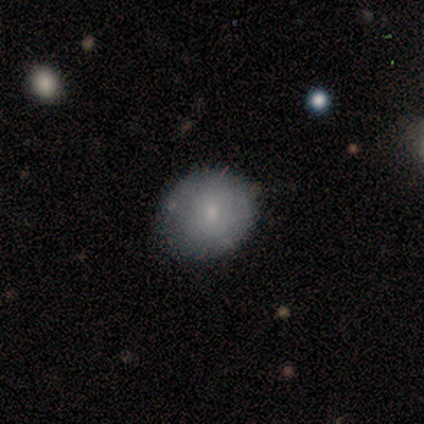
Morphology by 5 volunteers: Smooth or featured? 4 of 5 (80%) said smooth. How rounded? 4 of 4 (100%) said round. Merging? 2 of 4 (50%) said none.